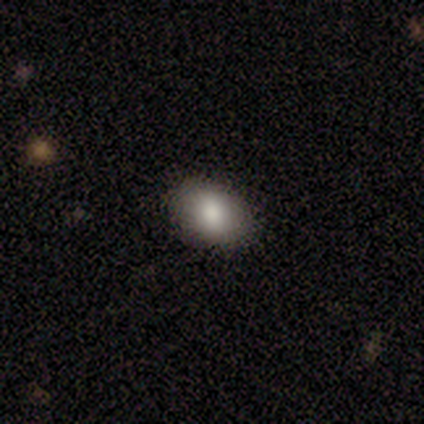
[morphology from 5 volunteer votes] type=smooth (80%); roundness=in between (75%); merging=none (50%).